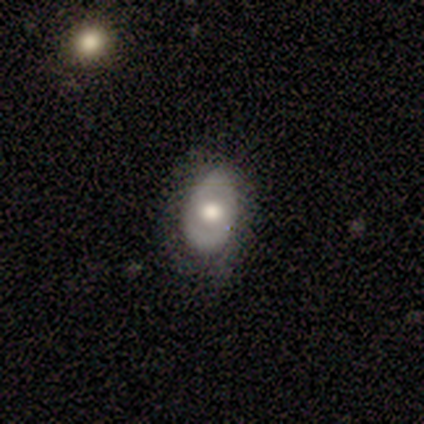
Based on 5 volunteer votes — Smooth or featured?
  - featured or disk: 60% *
  - smooth: 40%
  - star or artifact: 0%
Edge-on disk?
  - no: 100% *
  - yes: 0%
Bar?
  - no: 67% *
  - weak: 33%
  - strong: 0%
Spiral arms?
  - yes: 67% *
  - no: 33%
Spiral winding?
  - tight: 50% * (tied)
  - medium: 50% * (tied)
  - loose: 0%
Spiral arm count?
  - 2: 100% *
  - 1: 0%
  - 3: 0%
  - 4: 0%
  - more than 4: 0%
  - can't tell: 0%
Bulge size?
  - moderate: 100% *
  - dominant: 0%
  - large: 0%
  - small: 0%
  - none: 0%
Merging?
  - none: 80% *
  - minor disturbance: 20%
  - major disturbance: 0%
  - merger: 0%